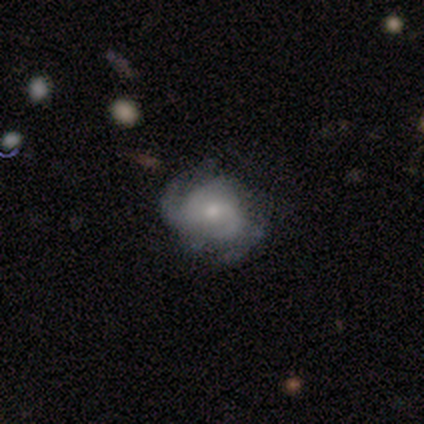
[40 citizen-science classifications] Smooth or featured?
  - featured or disk: 75% *
  - smooth: 22%
  - star or artifact: 2%
Edge-on disk?
  - no: 100% *
  - yes: 0%
Bar?
  - no: 60% *
  - weak: 40%
  - strong: 0%
Spiral arms?
  - yes: 93% *
  - no: 7%
Spiral winding?
  - medium: 50% *
  - tight: 36%
  - loose: 14%
Spiral arm count?
  - 2: 36% * (tied)
  - can't tell: 36% * (tied)
  - 3: 14%
  - 1: 7%
  - 4: 7%
  - more than 4: 0%
Bulge size?
  - small: 53% *
  - moderate: 37%
  - large: 7%
  - dominant: 3%
  - none: 0%
Merging?
  - none: 36% *
  - minor disturbance: 23%
  - major disturbance: 18%
  - merger: 3%